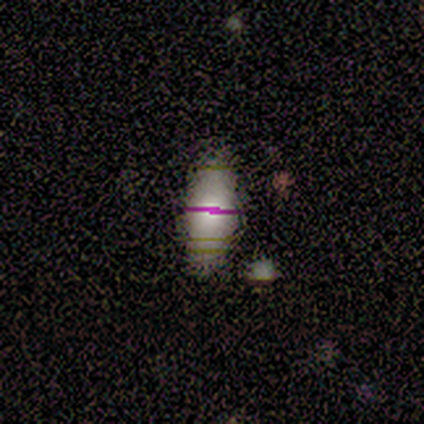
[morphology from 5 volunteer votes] Smooth or featured: star or artifact — 60% (featured or disk — 40%)